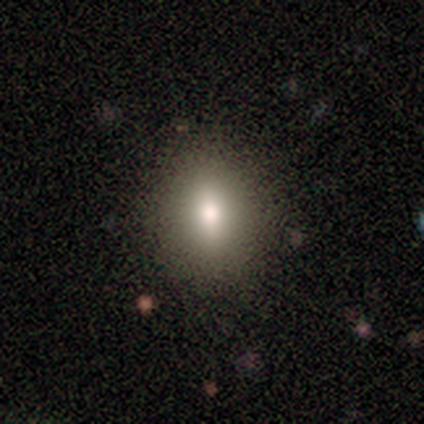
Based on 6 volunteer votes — A smooth galaxy with no disk features (100%) that is round (50%, tied with in between). Merging: none (100%).